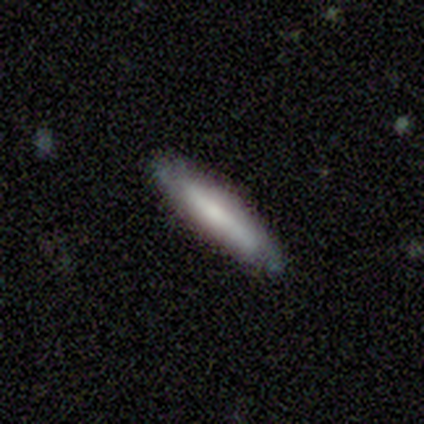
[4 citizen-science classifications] Smooth or featured?
  - smooth: 100% *
  - featured or disk: 0%
  - star or artifact: 0%
How rounded?
  - cigar-shaped: 100% *
  - round: 0%
  - in between: 0%
Merging?
  - none: 100% *
  - minor disturbance: 0%
  - major disturbance: 0%
  - merger: 0%